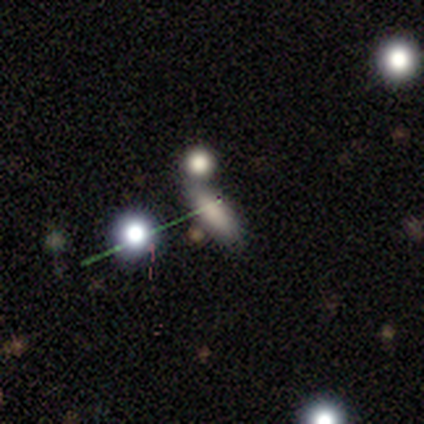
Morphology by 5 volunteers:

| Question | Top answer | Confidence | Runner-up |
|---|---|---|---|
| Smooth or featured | smooth | 60% | star or artifact (40%) |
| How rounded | in between | 67% | cigar-shaped (33%) |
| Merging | none | 33% | tied: minor disturbance (33%), merger (33%) |